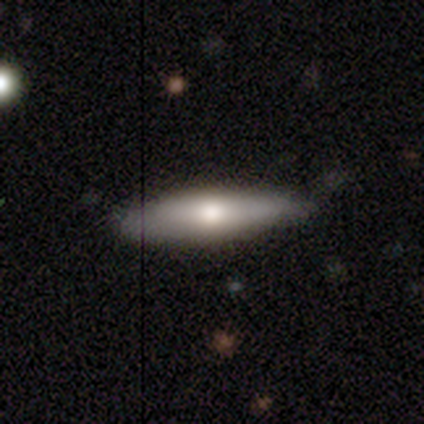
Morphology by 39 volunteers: Smooth or featured?
  - smooth: 51% *
  - featured or disk: 41%
  - star or artifact: 8%
How rounded?
  - cigar-shaped: 65% *
  - in between: 35%
  - round: 0%
Merging?
  - none: 81% *
  - minor disturbance: 17%
  - major disturbance: 3%
  - merger: 0%